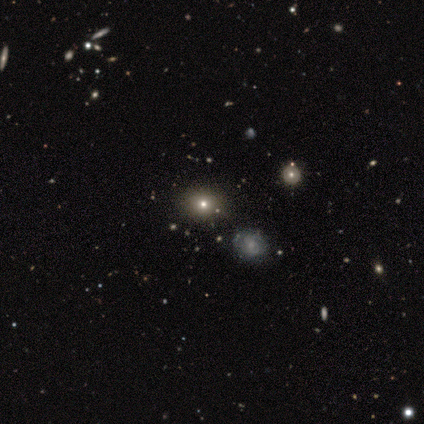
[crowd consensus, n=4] smooth_or_featured: smooth (p=0.75) [alt: star or artifact p=0.25]
how_rounded: in between (p=0.67) [alt: round p=0.33]
merging: none (p=1.00)